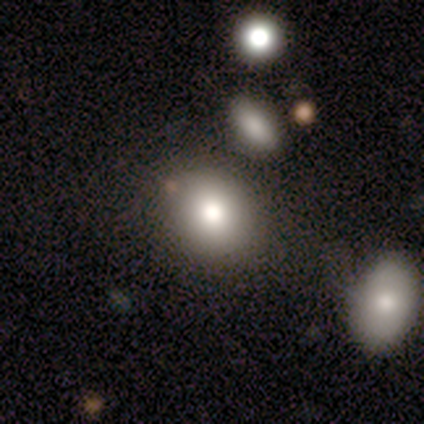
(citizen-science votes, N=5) Smooth or featured? smooth (40%, tied with star or artifact)
How rounded? round (100%)
Merging? none (100%)